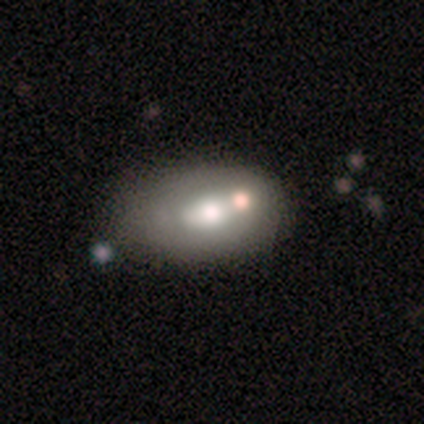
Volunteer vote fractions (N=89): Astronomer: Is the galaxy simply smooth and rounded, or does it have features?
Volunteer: smooth — 53% (runner-up: featured or disk, 38%).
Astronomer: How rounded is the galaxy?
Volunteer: in between — 98%.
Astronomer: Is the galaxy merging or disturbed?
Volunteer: none — 36% (runner-up: minor disturbance, 27%).